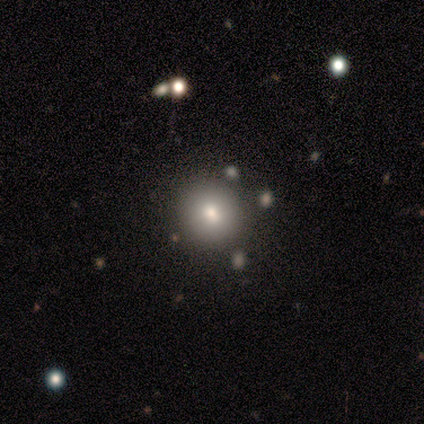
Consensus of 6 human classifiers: Smooth or featured: smooth — 67% (featured or disk — 17%)
How rounded: round — 100%
Merging: merger — 60% (none — 20%)